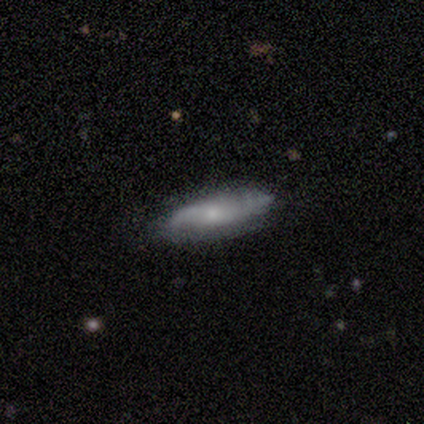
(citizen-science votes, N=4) Overall: smooth (50%, tied with featured or disk). How rounded: in between (50%, tied with cigar-shaped). Merging: none (75%).